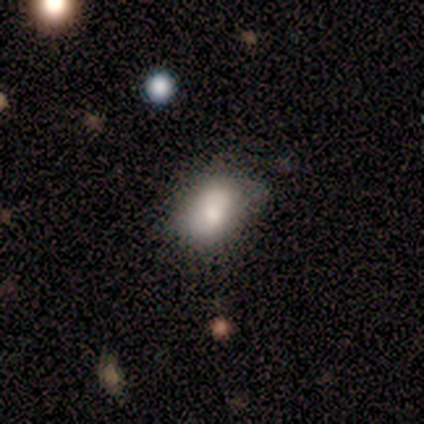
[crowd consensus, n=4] smooth-or-featured: smooth: 75% | star or artifact: 25% | featured or disk: 0%
  how-rounded: in between: 100% | round: 0% | cigar-shaped: 0%
  merging: none: 100% | minor disturbance: 0% | major disturbance: 0% | merger: 0%